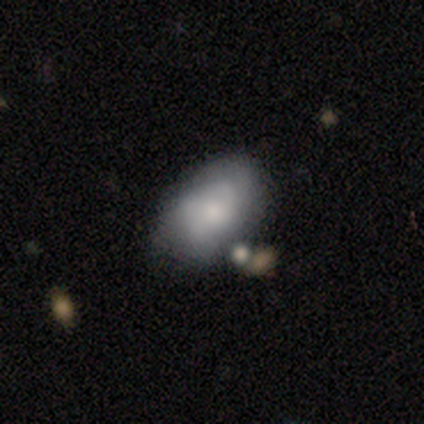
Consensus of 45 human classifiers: Q: Smooth or featured?
A: smooth (73%); runner-up: featured or disk (20%)
Q: How rounded?
A: in between (97%); runner-up: round (3%)
Q: Merging?
A: none (62%); runner-up: minor disturbance (26%)